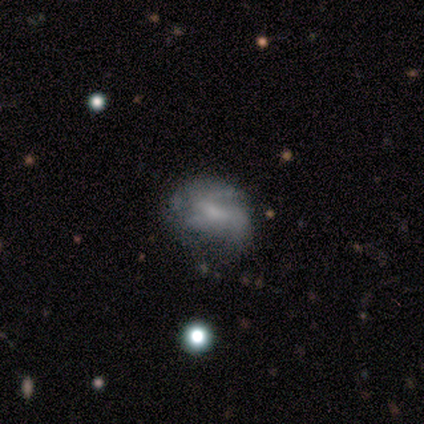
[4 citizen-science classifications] Q: Smooth or featured?
A: featured or disk (75%); runner-up: star or artifact (25%)
Q: Edge-on disk?
A: no (100%)
Q: Bar?
A: weak (67%); runner-up: no (33%)
Q: Spiral arms?
A: yes (100%)
Q: Spiral winding?
A: tight (100%)
Q: Spiral arm count?
A: can't tell (67%); runner-up: 3 (33%)
Q: Bulge size?
A: small (100%)
Q: Merging?
A: none (67%); runner-up: minor disturbance (33%)